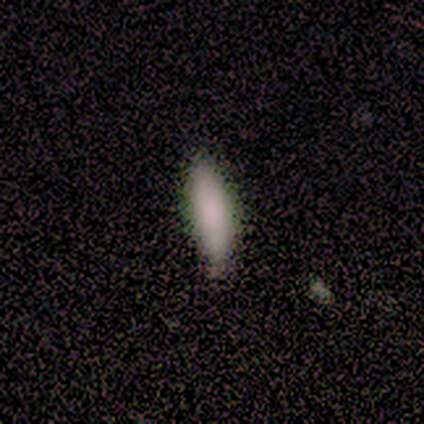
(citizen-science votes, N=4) Overall: smooth (75%). How rounded: in between (67%; cigar-shaped 33%). Merging: none (67%; minor disturbance 33%).